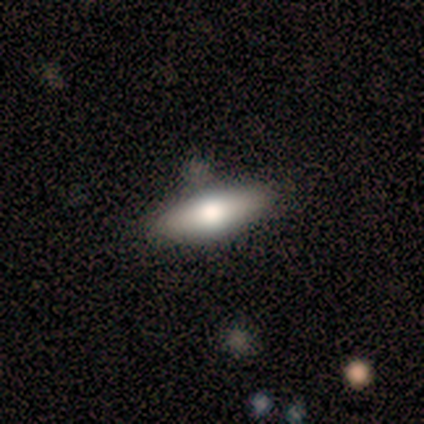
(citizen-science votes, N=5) Q: Smooth or featured?
A: featured or disk (100%)
Q: Edge-on disk?
A: yes (80%); runner-up: no (20%)
Q: Edge-on bulge?
A: rounded (100%)
Q: Merging?
A: none (80%); runner-up: merger (20%)